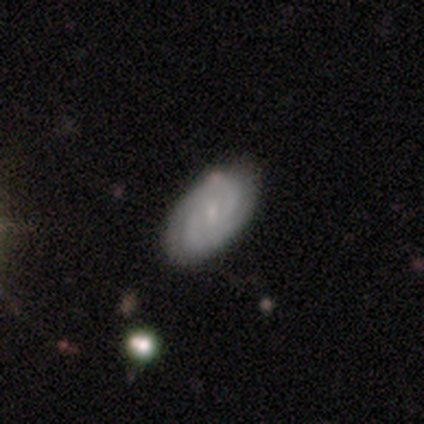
A featured or disk galaxy (100%) with no bar (75%), 2 (75%) tight (75%) spiral arms (100%) and a small central bulge (100%).

Vote fractions:
- Smooth or featured? featured or disk: 100% / smooth: 0% / star or artifact: 0%
- Edge-on disk? no: 80% / yes: 20%
- Bar? no: 75% / weak: 25% / strong: 0%
- Spiral arms? yes: 100% / no: 0%
- Spiral winding? tight: 75% / medium: 25% / loose: 0%
- Spiral arm count? 2: 75% / can't tell: 25% / 1: 0% / 3: 0% / 4: 0% / more than 4: 0%
- Bulge size? small: 100% / dominant: 0% / large: 0% / moderate: 0% / none: 0%
- Merging? none: 60% / minor disturbance: 20% / merger: 20% / major disturbance: 0%